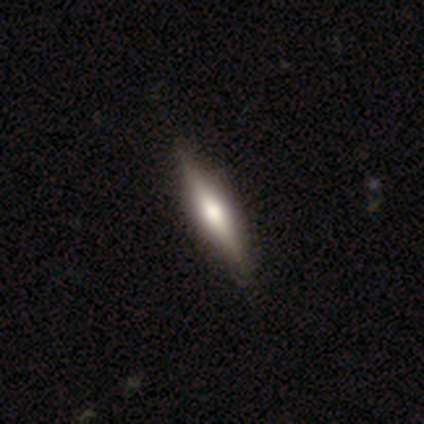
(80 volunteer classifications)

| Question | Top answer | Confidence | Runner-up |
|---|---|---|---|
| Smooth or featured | featured or disk | 62% | smooth (36%) |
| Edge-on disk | yes | 100% | — |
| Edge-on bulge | rounded | 84% | boxy (14%) |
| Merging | none | 57% | minor disturbance (5%) |